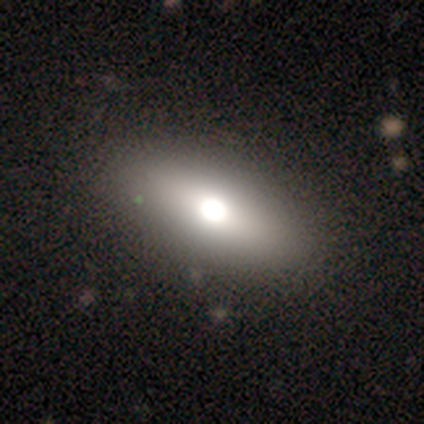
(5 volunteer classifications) This is likely a smooth galaxy (60%). How rounded: clearly in between (100%). Merging: clearly none (100%).